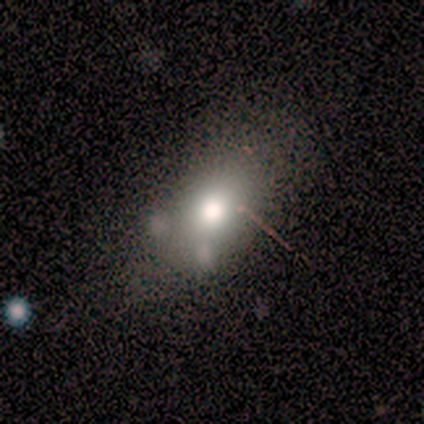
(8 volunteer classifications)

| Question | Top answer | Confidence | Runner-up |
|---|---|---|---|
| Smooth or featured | smooth | 88% | star or artifact (12%) |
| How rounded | round | 57% | in between (43%) |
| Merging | none | 57% | minor disturbance (14%) |